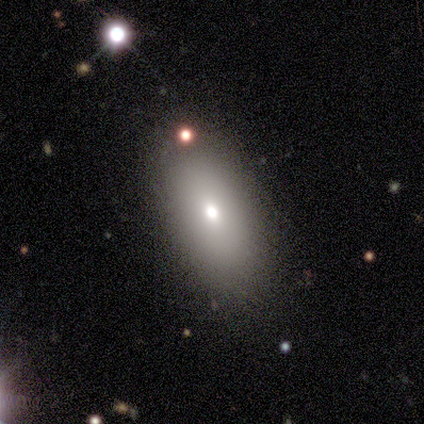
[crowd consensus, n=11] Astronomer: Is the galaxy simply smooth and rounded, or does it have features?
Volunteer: smooth — 55% (runner-up: featured or disk, 45%).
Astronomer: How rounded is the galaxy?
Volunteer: in between — 100%.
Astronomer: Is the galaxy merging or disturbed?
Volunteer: none — 91%.